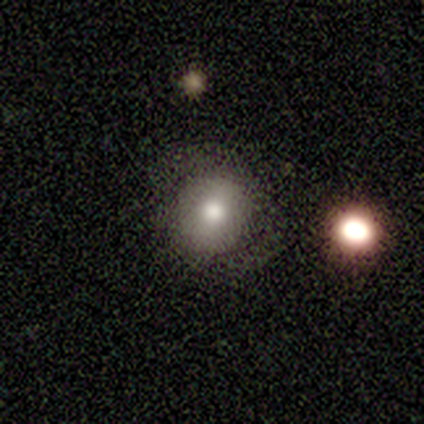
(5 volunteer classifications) A smooth galaxy with no disk features (80%) that is round (100%). Merging: none (60%).